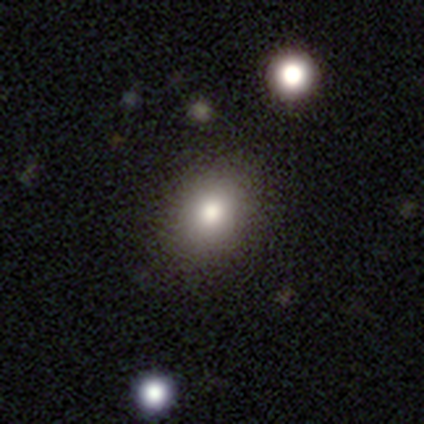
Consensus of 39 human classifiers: Smooth or featured? 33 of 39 (85%) said smooth. How rounded? 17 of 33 (52%) said round. Merging? 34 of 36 (94%) said none.